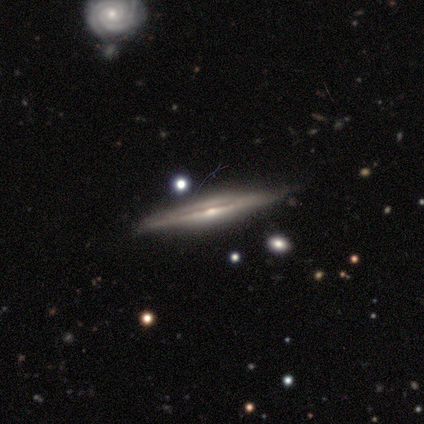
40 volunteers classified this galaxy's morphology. featured or disk 92%, smooth 5%, star or artifact 2%. Down the decision tree: edge-on disk — yes (95%); edge-on bulge — rounded (69%); merging — none (85%).